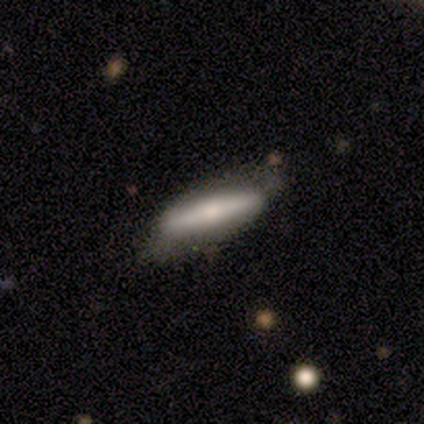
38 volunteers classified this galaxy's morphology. Overall: smooth (50%; featured or disk 47%). How rounded: cigar-shaped (58%; in between 42%). Merging: none (38%; minor disturbance 16%).